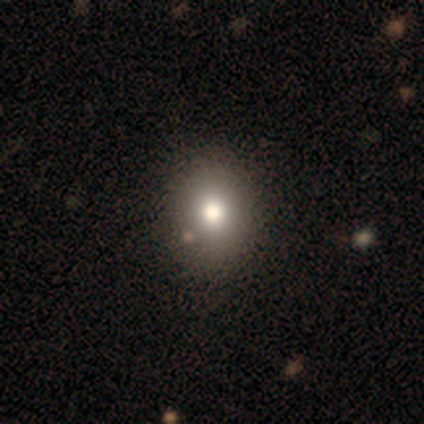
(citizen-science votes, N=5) Overall: smooth (80%). How rounded: round (50%, tied with in between). Merging: none (100%).